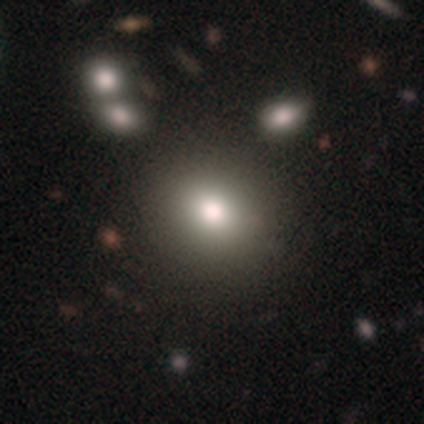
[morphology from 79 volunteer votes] Smooth or featured? 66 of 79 (84%) said smooth. How rounded? 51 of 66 (77%) said round. Merging? 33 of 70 (47%) said none.